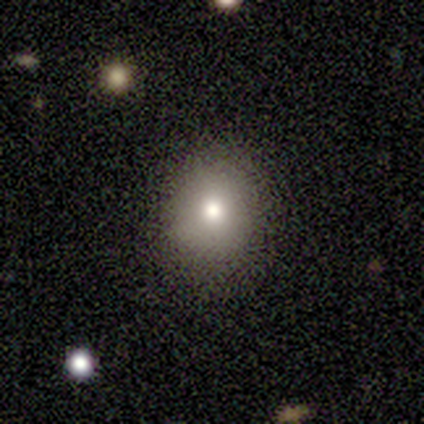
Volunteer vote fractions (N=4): Smooth or featured? smooth (75%)
How rounded? round (67%)
Merging? none (100%)